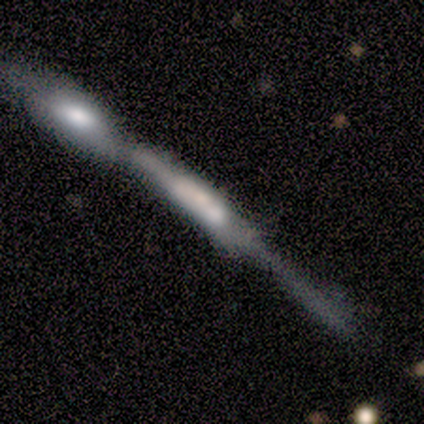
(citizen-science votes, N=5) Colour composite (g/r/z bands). It shows a featured or disk galaxy (80%) viewed edge-on (100%) with a rounded central bulge (50%). Merging: merger (80%).